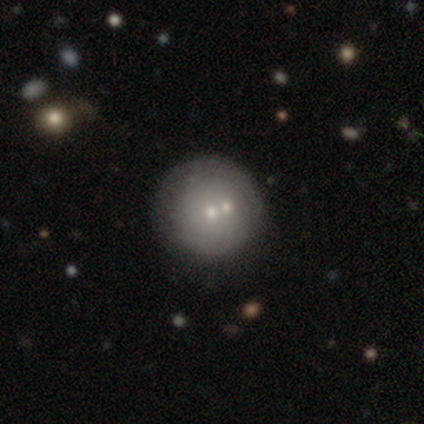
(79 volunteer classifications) Q: Smooth or featured?
A: smooth (58%); runner-up: featured or disk (35%)
Q: How rounded?
A: round (96%); runner-up: in between (4%)
Q: Merging?
A: none (28%); tied with: merger (28%)